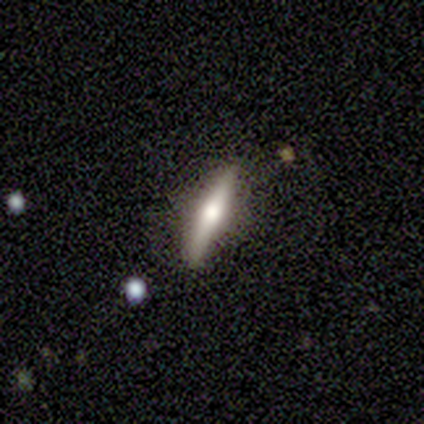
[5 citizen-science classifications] Smooth or featured? 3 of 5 (60%) said featured or disk. Edge-on disk? 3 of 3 (100%) said yes. Edge-on bulge? 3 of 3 (100%) said rounded. Merging? 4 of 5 (80%) said none.